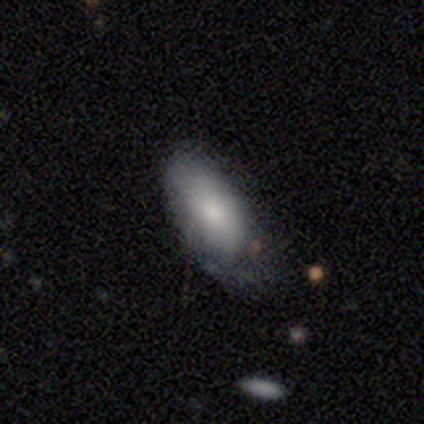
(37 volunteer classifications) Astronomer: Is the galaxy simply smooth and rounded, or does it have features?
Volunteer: smooth — 76%.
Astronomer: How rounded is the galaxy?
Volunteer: in between — 100%.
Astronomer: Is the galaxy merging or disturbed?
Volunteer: minor disturbance — 61%.